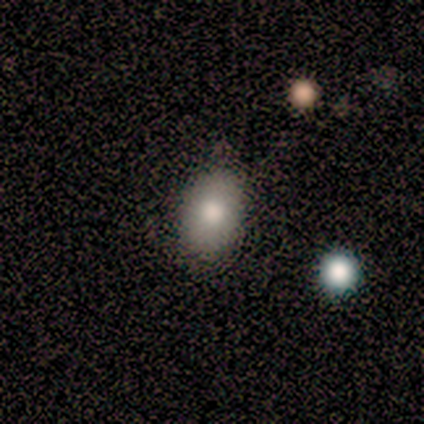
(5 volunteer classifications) A smooth galaxy with no disk features (80%) that is in between round and cigar-shaped (100%). Merging: none (80%).